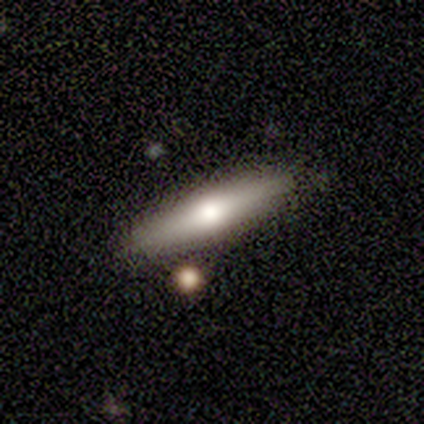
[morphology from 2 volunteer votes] Q: Smooth or featured?
A: featured or disk (100%)
Q: Edge-on disk?
A: yes (100%)
Q: Edge-on bulge?
A: rounded (100%)
Q: Merging?
A: none (50%); tied with: minor disturbance (50%)